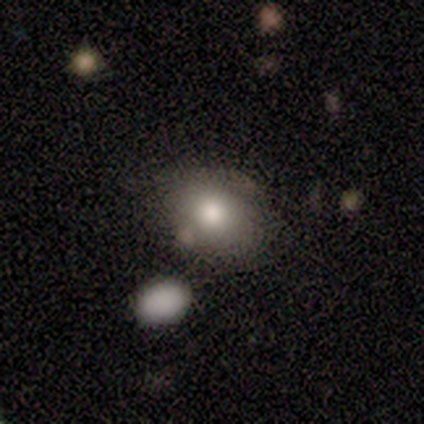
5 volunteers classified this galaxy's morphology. Smooth or featured? smooth (100%)
How rounded? in between (60%)
Merging? none (60%)